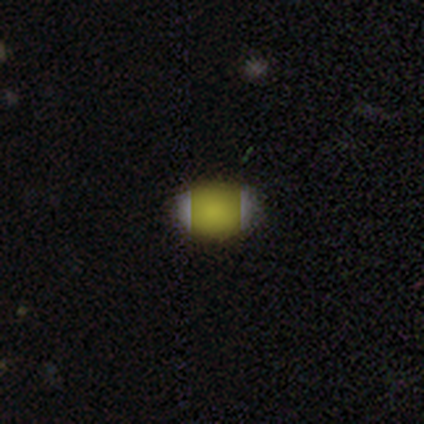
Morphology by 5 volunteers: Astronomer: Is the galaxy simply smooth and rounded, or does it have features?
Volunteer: smooth — 60% (runner-up: star or artifact, 40%).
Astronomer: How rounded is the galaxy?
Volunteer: in between — 100%.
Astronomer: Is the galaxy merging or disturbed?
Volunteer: none — 100%.